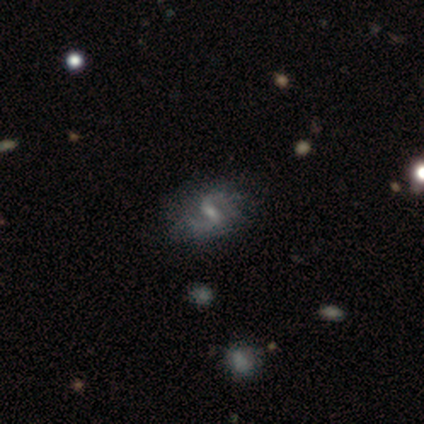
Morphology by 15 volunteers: This appears to be a featured or disk galaxy (100%) with a weak bar (53%), 2 (100%) medium (60%) spiral arms (100%) and a small central bulge (67%). Merging: none (80%).